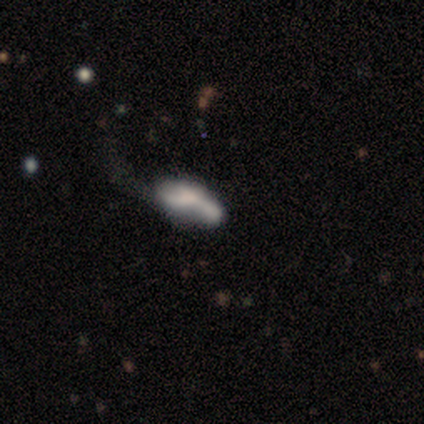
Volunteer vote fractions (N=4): smooth-or-featured: smooth: 50% (tied) | featured or disk: 50% (tied) | star or artifact: 0%
  how-rounded: cigar-shaped: 100% | round: 0% | in between: 0%
  merging: major disturbance: 50% | none: 25% | merger: 25% | minor disturbance: 0%